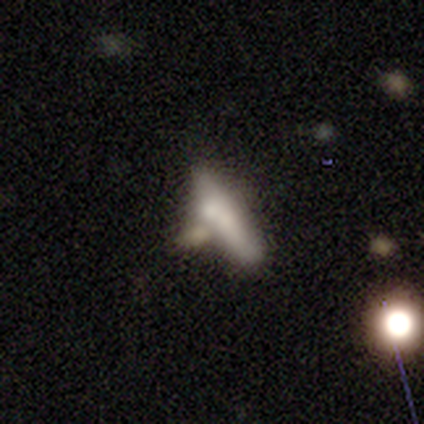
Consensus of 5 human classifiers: This appears to be a smooth galaxy with no disk features (80%) that is cigar-shaped (75%). Merging: none (40%, tied with minor disturbance).